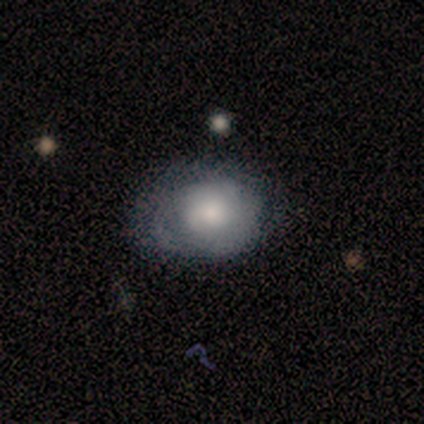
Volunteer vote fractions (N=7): This is likely a smooth galaxy (71%). How rounded: likely round (60%). Merging: likely minor disturbance (71%).